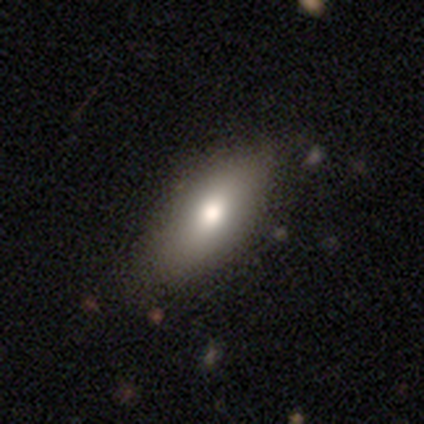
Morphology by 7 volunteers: Smooth or featured? smooth (86%)
How rounded? in between (83%)
Merging? none (71%)